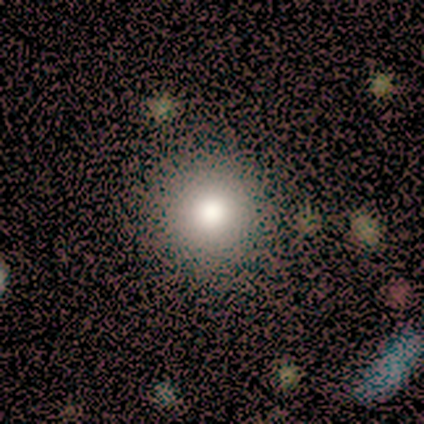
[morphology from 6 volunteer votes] A smooth galaxy with no disk features (100%) that is round (100%).

Vote fractions:
- Smooth or featured? smooth: 100% / featured or disk: 0% / star or artifact: 0%
- How rounded? round: 100% / in between: 0% / cigar-shaped: 0%
- Merging? none: 83% / merger: 17% / minor disturbance: 0% / major disturbance: 0%